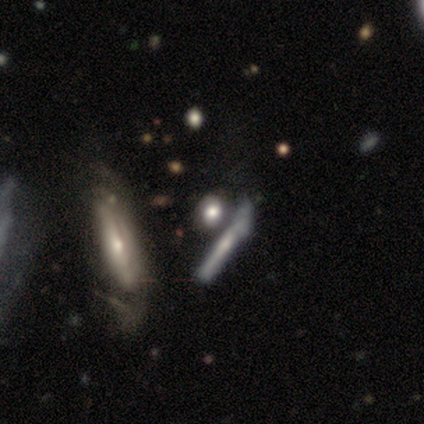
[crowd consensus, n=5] smooth 80%, featured or disk 20%, star or artifact 0%. Down the decision tree: how rounded — cigar-shaped (50%); merging — none (60%).